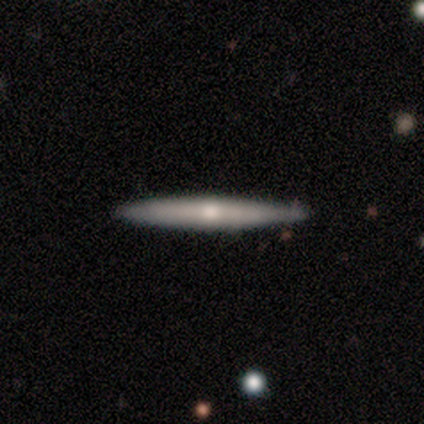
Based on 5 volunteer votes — Volunteers were most divided on "edge-on bulge": rounded: 75%, none: 25%, boxy: 0%. More confident: edge-on disk — yes (100%); smooth or featured — featured or disk (80%); merging — none (80%).